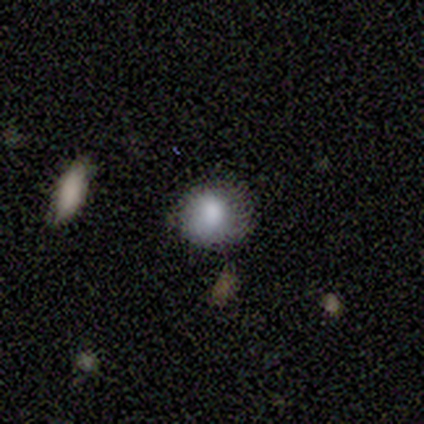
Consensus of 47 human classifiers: Smooth or featured?
  - smooth: 83% *
  - star or artifact: 11%
  - featured or disk: 6%
How rounded?
  - round: 90% *
  - in between: 10%
  - cigar-shaped: 0%
Merging?
  - none: 69% *
  - minor disturbance: 26%
  - major disturbance: 2%
  - merger: 2%